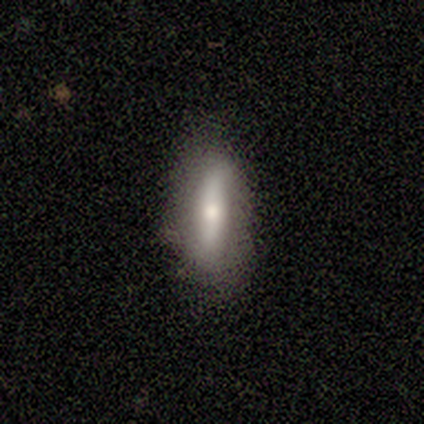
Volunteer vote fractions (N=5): A featured or disk galaxy (80%) with a strong bar (67%), no spiral arms (100%) and a large central bulge (33%, tied with moderate and small).

Vote fractions:
- Smooth or featured? featured or disk: 80% / smooth: 20% / star or artifact: 0%
- Edge-on disk? no: 75% / yes: 25%
- Bar? strong: 67% / no: 33% / weak: 0%
- Spiral arms? no: 100% / yes: 0%
- Bulge size? large: 33% (tied) / moderate: 33% (tied) / small: 33% (tied) / dominant: 0% / none: 0%
- Merging? none: 80% / minor disturbance: 20% / major disturbance: 0% / merger: 0%